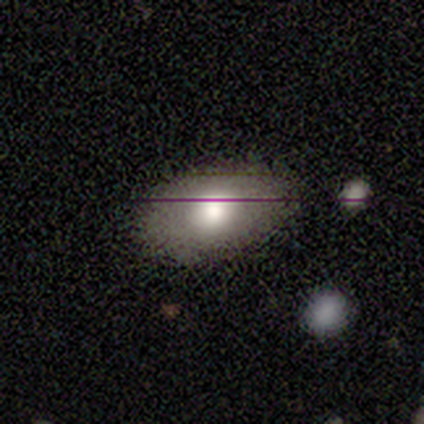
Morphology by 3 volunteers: Smooth or featured: featured or disk — 67% (smooth — 33%)
Edge-on disk: yes — 50% (tied with no — 50%)
Edge-on bulge: rounded — 100%
Merging: none — 100%